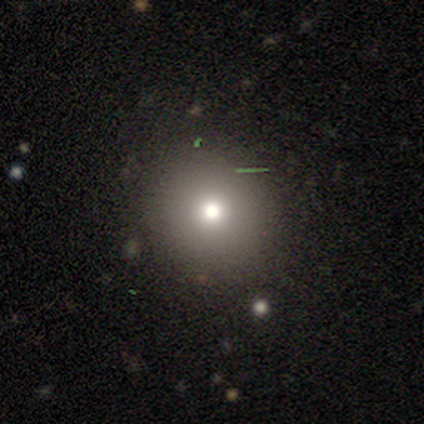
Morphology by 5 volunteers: Q: Smooth or featured?
A: smooth (60%); runner-up: star or artifact (40%)
Q: How rounded?
A: round (100%)
Q: Merging?
A: none (100%)